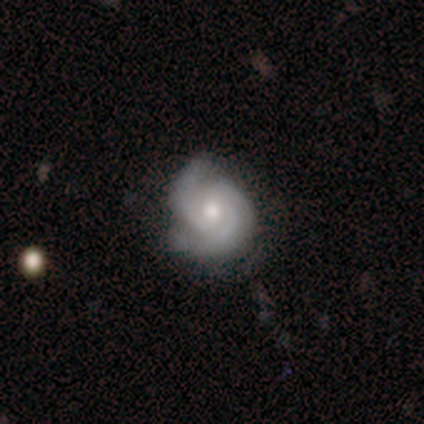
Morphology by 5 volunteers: Smooth or featured?
  - featured or disk: 100% *
  - smooth: 0%
  - star or artifact: 0%
Edge-on disk?
  - no: 100% *
  - yes: 0%
Bar?
  - no: 80% *
  - weak: 20%
  - strong: 0%
Spiral arms?
  - yes: 100% *
  - no: 0%
Spiral winding?
  - medium: 60% *
  - tight: 40%
  - loose: 0%
Spiral arm count?
  - 3: 40% *
  - 1: 20%
  - 2: 20%
  - can't tell: 20%
  - 4: 0%
  - more than 4: 0%
Bulge size?
  - moderate: 80% *
  - small: 20%
  - dominant: 0%
  - large: 0%
  - none: 0%
Merging?
  - none: 60% *
  - minor disturbance: 20%
  - major disturbance: 20%
  - merger: 0%